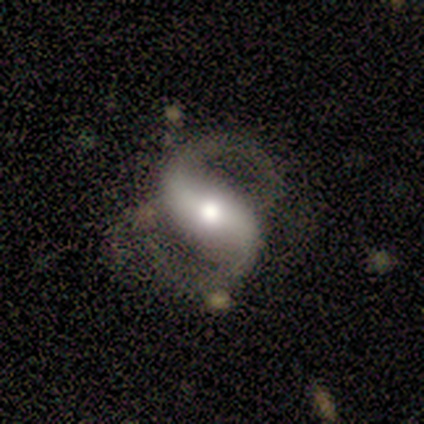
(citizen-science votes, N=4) Smooth or featured?
  - featured or disk: 100% *
  - smooth: 0%
  - star or artifact: 0%
Edge-on disk?
  - no: 100% *
  - yes: 0%
Bar?
  - strong: 75% *
  - no: 25%
  - weak: 0%
Spiral arms?
  - yes: 100% *
  - no: 0%
Spiral winding?
  - medium: 50% * (tied)
  - loose: 50% * (tied)
  - tight: 0%
Spiral arm count?
  - 2: 100% *
  - 1: 0%
  - 3: 0%
  - 4: 0%
  - more than 4: 0%
  - can't tell: 0%
Bulge size?
  - large: 50% *
  - moderate: 25%
  - none: 25%
  - dominant: 0%
  - small: 0%
Merging?
  - none: 75% *
  - minor disturbance: 25%
  - major disturbance: 0%
  - merger: 0%